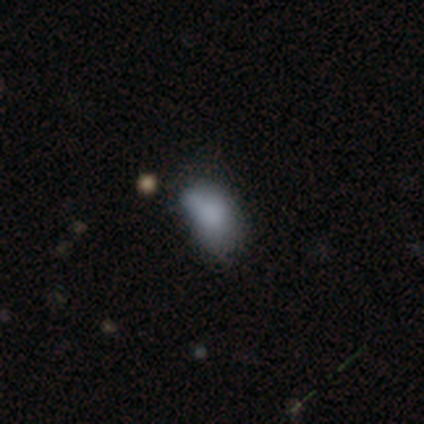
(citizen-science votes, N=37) Smooth or featured? smooth (81%)
How rounded? in between (97%)
Merging? minor disturbance (49%)